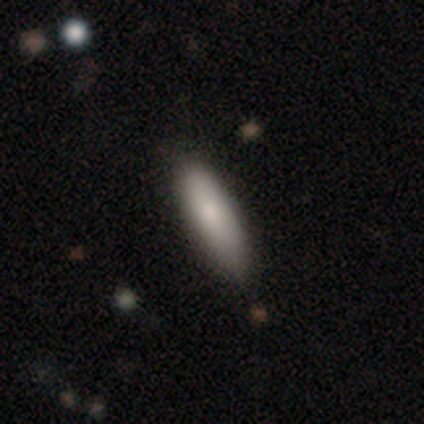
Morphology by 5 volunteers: A smooth galaxy with no disk features (80%) that is in between round and cigar-shaped (75%). Merging: none (100%).